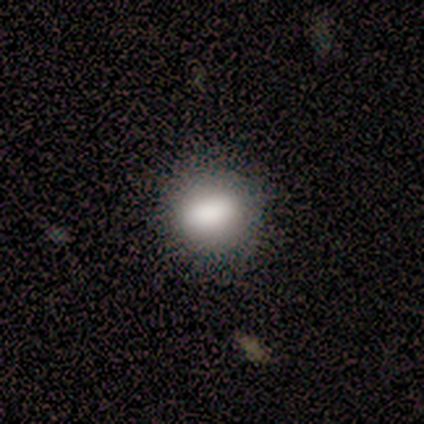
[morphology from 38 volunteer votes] Smooth or featured?
  - smooth: 82% *
  - featured or disk: 11%
  - star or artifact: 8%
How rounded?
  - in between: 48% *
  - round: 45%
  - cigar-shaped: 6%
Merging?
  - none: 83% *
  - minor disturbance: 11%
  - major disturbance: 6%
  - merger: 0%